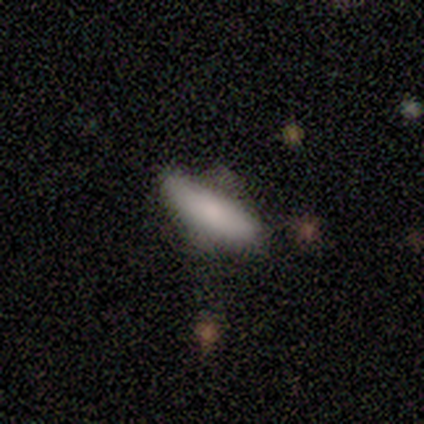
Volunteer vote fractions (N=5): A smooth galaxy with no disk features (100%) that is cigar-shaped (80%).

Vote fractions:
- Smooth or featured? smooth: 100% / featured or disk: 0% / star or artifact: 0%
- How rounded? cigar-shaped: 80% / in between: 20% / round: 0%
- Merging? none: 60% / minor disturbance: 40% / major disturbance: 0% / merger: 0%